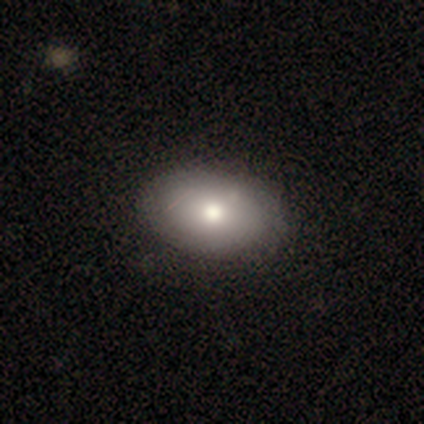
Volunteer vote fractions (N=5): This is clearly a smooth galaxy (100%). How rounded: clearly in between (100%). Merging: clearly none (100%).